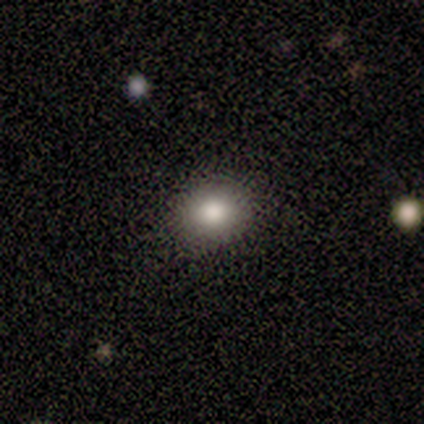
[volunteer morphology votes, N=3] Volunteers were most divided on "how rounded": round: 67%, in between: 33%, cigar-shaped: 0%. More confident: smooth or featured — smooth (100%); merging — none (100%).